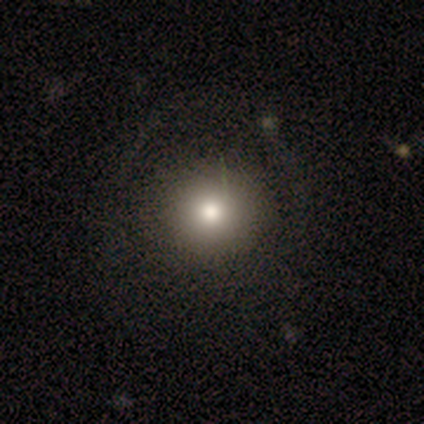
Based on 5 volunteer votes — This appears to be a smooth galaxy with no disk features (100%) that is round (100%). Merging: none (80%).